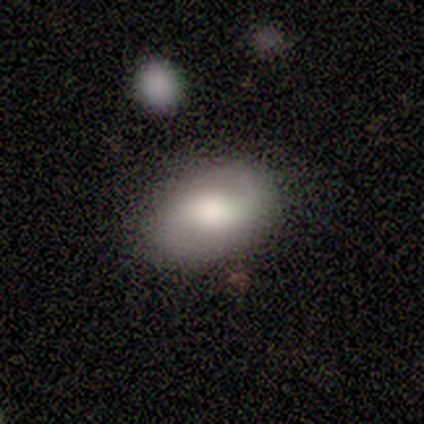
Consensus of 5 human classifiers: A featured or disk galaxy (100%) with no bar (100%), 2 (100%) medium (50%) spiral arms (100%) and a large central bulge (75%).

Vote fractions:
- Smooth or featured? featured or disk: 100% / smooth: 0% / star or artifact: 0%
- Edge-on disk? no: 80% / yes: 20%
- Bar? no: 100% / strong: 0% / weak: 0%
- Spiral arms? yes: 100% / no: 0%
- Spiral winding? medium: 50% / tight: 25% / loose: 25%
- Spiral arm count? 2: 100% / 1: 0% / 3: 0% / 4: 0% / more than 4: 0% / can't tell: 0%
- Bulge size? large: 75% / moderate: 25% / dominant: 0% / small: 0% / none: 0%
- Merging? none: 100% / minor disturbance: 0% / major disturbance: 0% / merger: 0%